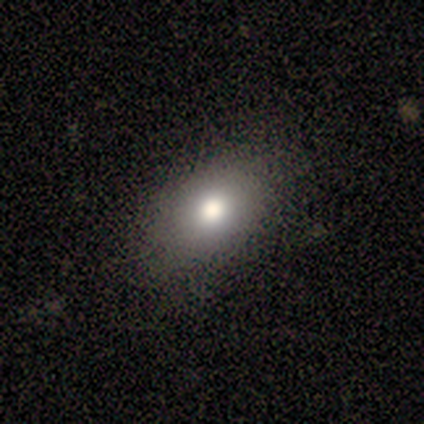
This is likely a smooth galaxy (75%). How rounded: likely in between (67%). Merging: likely none (75%).